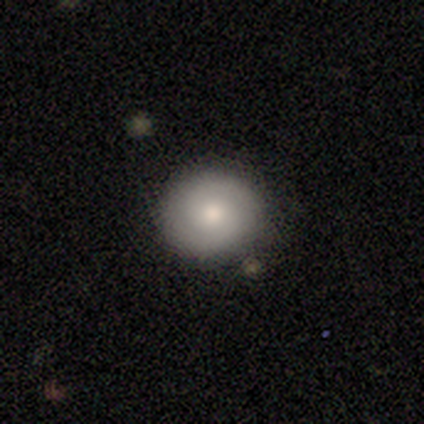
featured or disk 60%, smooth 40%, star or artifact 0%. Down the decision tree: edge-on disk — no (100%); bar — no (100%); spiral arms — yes (100%); spiral arm count — 2 (100%); spiral winding — tight (33%, tied with medium and loose); bulge size — moderate (67%); merging — none (100%).